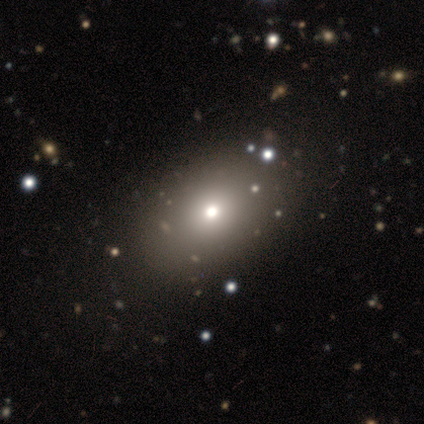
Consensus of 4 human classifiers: Smooth or featured: smooth — 100%
How rounded: round — 50% (tied with in between — 50%)
Merging: none — 50% (tied with minor disturbance — 50%)